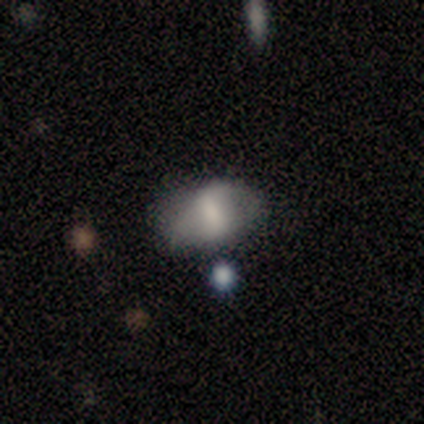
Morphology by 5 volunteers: smooth_or_featured: smooth (p=0.60) [alt: featured or disk p=0.40]
how_rounded: in between (p=1.00)
merging: none (p=0.80) [alt: merger p=0.20]